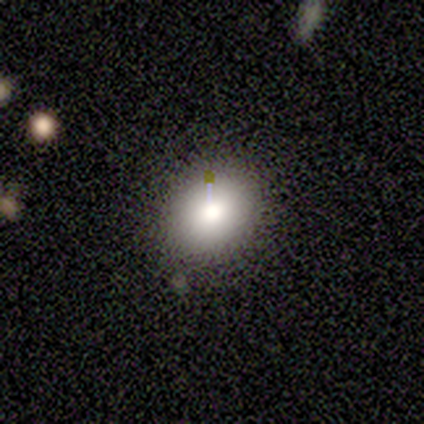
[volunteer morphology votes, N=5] Overall: smooth (80%). How rounded: round (50%, tied with in between). Merging: none (100%).